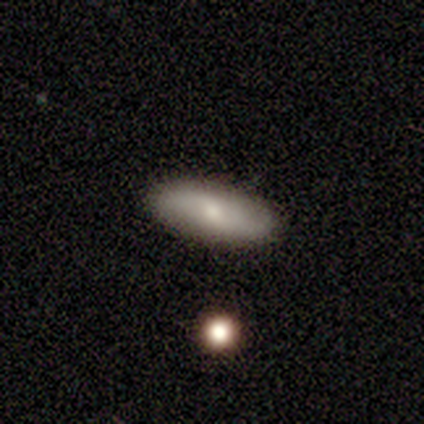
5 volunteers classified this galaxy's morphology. Smooth or featured? featured or disk (60%)
Edge-on disk? yes (67%)
Edge-on bulge? rounded (100%)
Merging? none (100%)